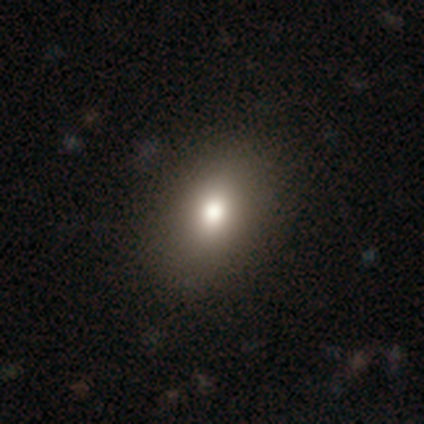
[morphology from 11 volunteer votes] Smooth or featured? smooth (73%)
How rounded? in between (62%)
Merging? none (100%)